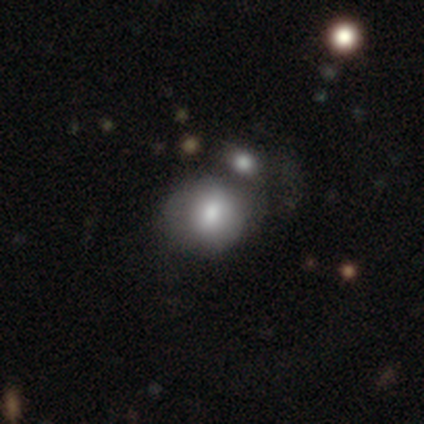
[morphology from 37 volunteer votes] A smooth galaxy with no disk features (73%) that is round (70%). Merging: none (59%).